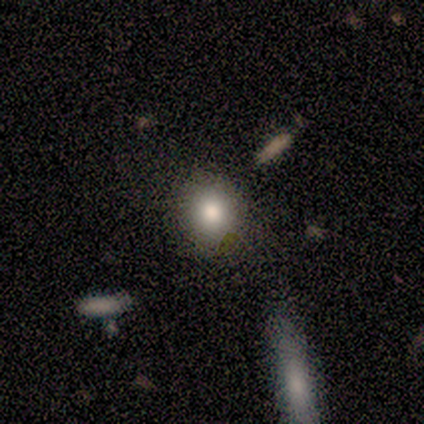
smooth-or-featured: smooth: 80% | star or artifact: 20% | featured or disk: 0%
  how-rounded: round: 75% | in between: 25% | cigar-shaped: 0%
  merging: none: 75% | merger: 25% | minor disturbance: 0% | major disturbance: 0%